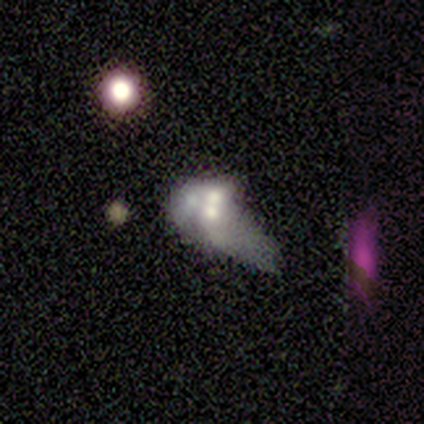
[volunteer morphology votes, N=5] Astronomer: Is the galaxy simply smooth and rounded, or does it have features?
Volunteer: featured or disk — 100%.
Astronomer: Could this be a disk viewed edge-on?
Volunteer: no — 100%.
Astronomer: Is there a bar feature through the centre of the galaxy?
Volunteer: no — 80%.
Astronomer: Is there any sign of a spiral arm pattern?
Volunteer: no — 80%.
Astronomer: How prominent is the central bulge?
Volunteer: moderate — 40%, tied with small at 40%.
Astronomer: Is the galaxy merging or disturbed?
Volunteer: major disturbance — 40%, tied with merger at 40%.